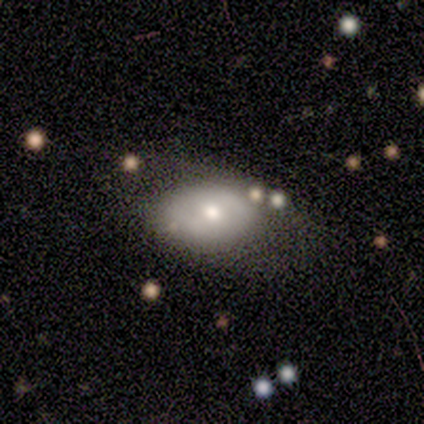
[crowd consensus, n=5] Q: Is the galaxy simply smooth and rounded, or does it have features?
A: smooth — 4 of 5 (80%).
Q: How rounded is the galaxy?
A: in between — 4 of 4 (100%).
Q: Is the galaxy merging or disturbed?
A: none — 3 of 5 (60%).